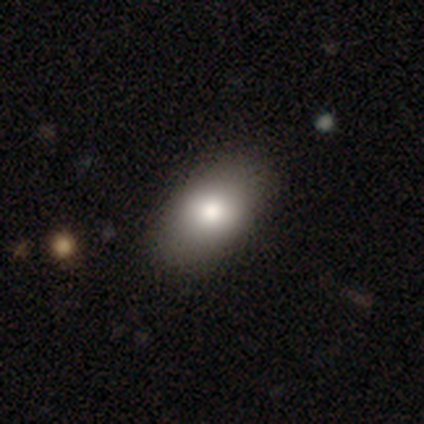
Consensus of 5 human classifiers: Morphology: type=smooth (80%); roundness=in between (100%); merging=none (80%).